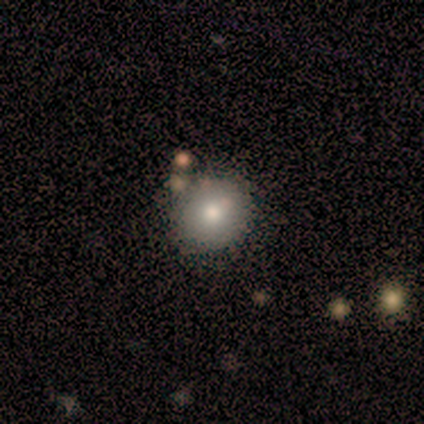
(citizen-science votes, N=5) Smooth or featured: smooth — 100%
How rounded: round — 100%
Merging: none — 80% (minor disturbance — 20%)